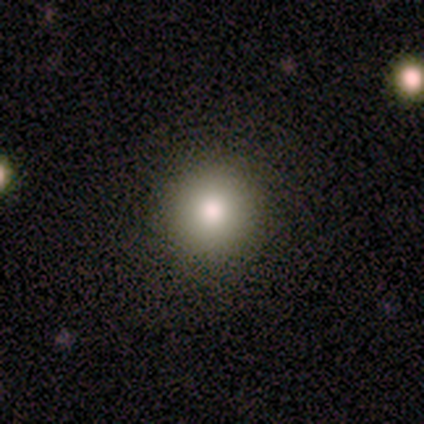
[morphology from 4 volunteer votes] Q: Smooth or featured?
A: smooth (75%); runner-up: star or artifact (25%)
Q: How rounded?
A: round (100%)
Q: Merging?
A: none (100%)